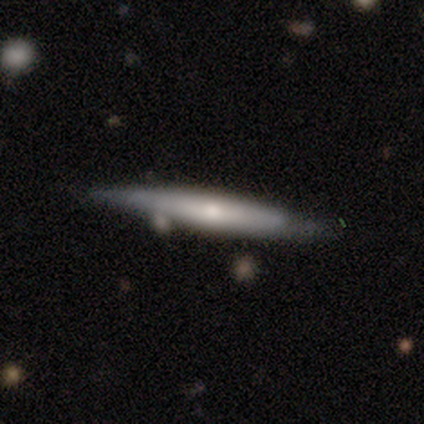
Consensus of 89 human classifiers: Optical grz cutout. It shows a featured or disk galaxy (54%) viewed edge-on (90%) with a rounded central bulge (67%). Merging: none (73%).